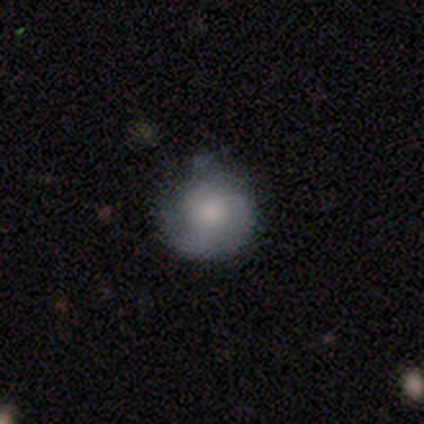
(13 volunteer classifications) smooth_or_featured: smooth (p=0.69) [alt: featured or disk p=0.31]
how_rounded: round (p=1.00)
merging: none (p=0.62) [alt: minor disturbance p=0.38]